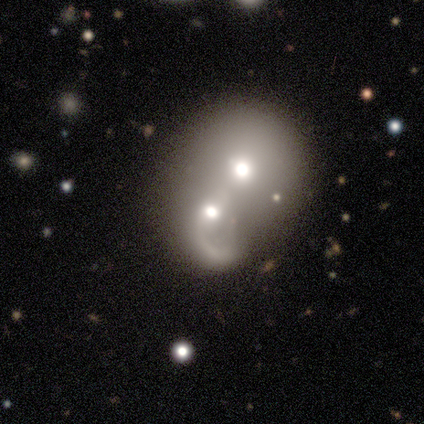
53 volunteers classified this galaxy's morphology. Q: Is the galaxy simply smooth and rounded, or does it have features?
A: featured or disk — 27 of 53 (51%).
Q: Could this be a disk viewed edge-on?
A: no — 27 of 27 (100%).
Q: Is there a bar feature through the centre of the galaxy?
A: no — 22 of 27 (81%).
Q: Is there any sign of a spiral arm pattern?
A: yes — 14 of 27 (52%).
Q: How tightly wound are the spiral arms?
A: loose — 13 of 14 (93%).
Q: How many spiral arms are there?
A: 1 — 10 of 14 (71%).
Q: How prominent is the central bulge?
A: moderate — 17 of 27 (63%).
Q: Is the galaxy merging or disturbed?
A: merger — 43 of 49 (88%).